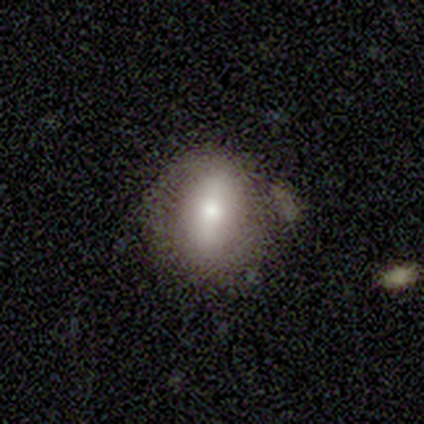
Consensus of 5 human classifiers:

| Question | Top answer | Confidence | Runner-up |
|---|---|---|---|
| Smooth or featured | smooth | 80% | star or artifact (20%) |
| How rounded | round | 75% | cigar-shaped (25%) |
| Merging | none | 75% | minor disturbance (25%) |